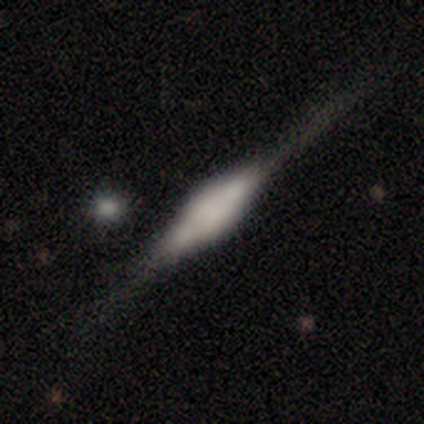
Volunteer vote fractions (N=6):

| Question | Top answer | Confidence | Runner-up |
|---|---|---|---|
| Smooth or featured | featured or disk | 100% | — |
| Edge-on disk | yes | 100% | — |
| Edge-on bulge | boxy | 67% | rounded (33%) |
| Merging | none | 100% | — |